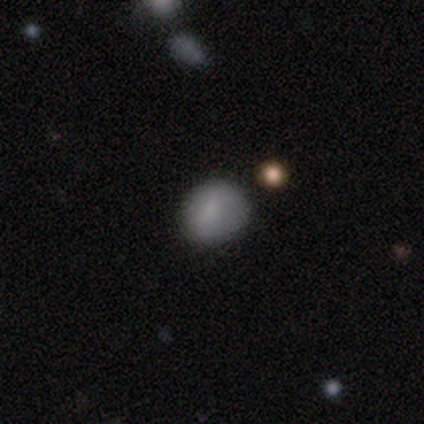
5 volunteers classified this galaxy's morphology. Smooth or featured: smooth — 100%
How rounded: round — 80% (in between — 20%)
Merging: none — 100%